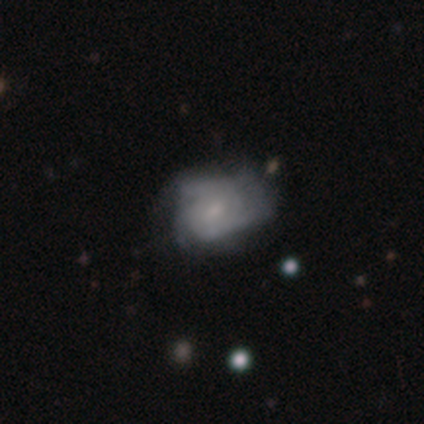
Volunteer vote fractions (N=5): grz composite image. It shows a featured or disk galaxy (80%) with no bar (75%), 3 (67%) tight (33%, tied with medium and loose) spiral arms (75%) and a moderate central bulge (50%). Merging: minor disturbance (40%, tied with major disturbance).